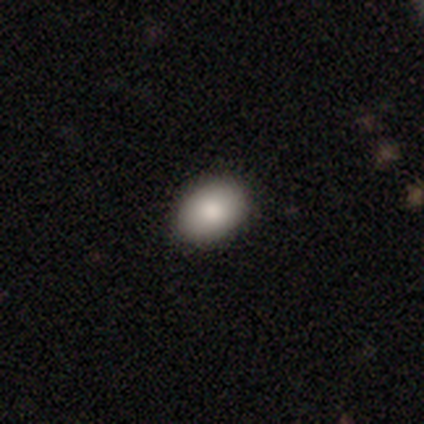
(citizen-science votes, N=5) This appears to be a smooth galaxy with no disk features (60%) that is round (67%). Merging: none (100%).